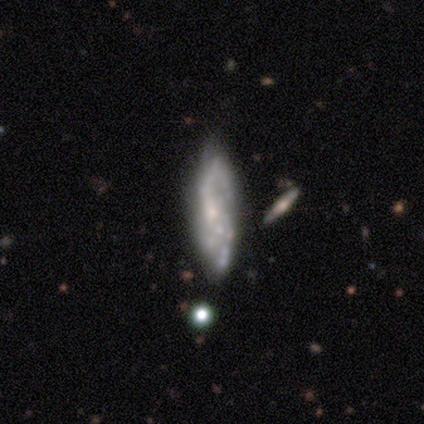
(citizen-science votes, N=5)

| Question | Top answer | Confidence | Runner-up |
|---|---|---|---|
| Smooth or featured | featured or disk | 80% | smooth (20%) |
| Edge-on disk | no | 75% | yes (25%) |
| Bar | no | 100% | — |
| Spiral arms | yes | 67% | no (33%) |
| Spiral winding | medium | 50% | tied: loose (50%) |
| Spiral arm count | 1 | 50% | tied: 2 (50%) |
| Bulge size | none | 67% | small (33%) |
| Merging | none | 40% | tied: merger (40%) |